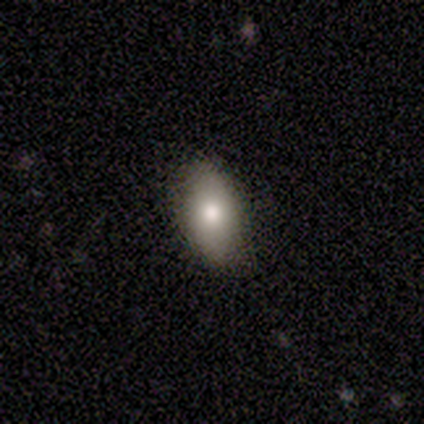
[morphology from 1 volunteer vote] Smooth or featured? 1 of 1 (100%) said smooth. How rounded? 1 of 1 (100%) said round. Merging? 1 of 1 (100%) said none.